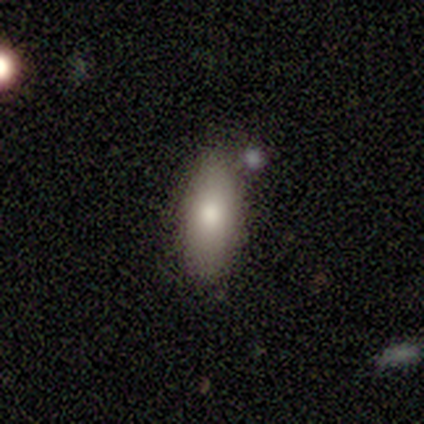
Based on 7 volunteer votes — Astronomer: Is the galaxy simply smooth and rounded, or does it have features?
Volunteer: smooth — 100%.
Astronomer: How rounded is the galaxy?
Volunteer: in between — 100%.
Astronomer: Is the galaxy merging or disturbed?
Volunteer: none — 86%.